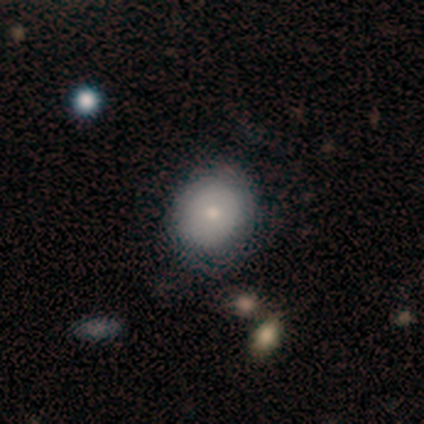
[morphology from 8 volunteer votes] smooth 75%, featured or disk 25%, star or artifact 0%. Down the decision tree: how rounded — round (83%); merging — none (75%).